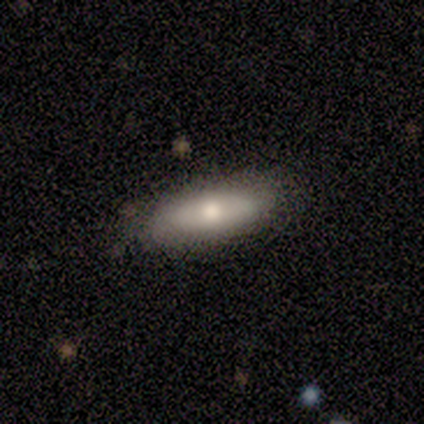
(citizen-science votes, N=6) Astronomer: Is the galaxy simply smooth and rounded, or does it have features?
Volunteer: smooth — 100%.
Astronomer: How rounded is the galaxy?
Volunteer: cigar-shaped — 67%.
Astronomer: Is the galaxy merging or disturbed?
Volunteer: none — 83%.